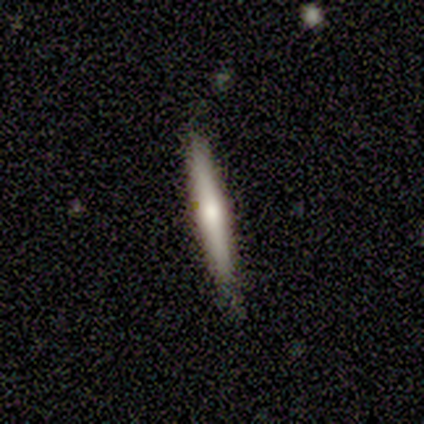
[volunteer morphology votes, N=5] type=smooth (60%); roundness=cigar-shaped (100%); merging=none (60%).